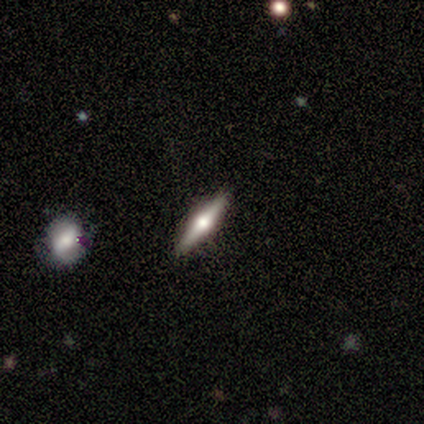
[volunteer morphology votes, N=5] featured or disk 80%, smooth 20%, star or artifact 0%. Down the decision tree: edge-on disk — yes (100%); edge-on bulge — rounded (75%); merging — none (80%).